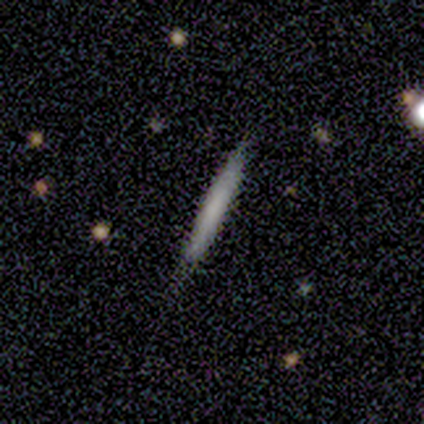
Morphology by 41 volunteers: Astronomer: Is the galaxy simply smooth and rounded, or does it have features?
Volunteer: smooth — 63%.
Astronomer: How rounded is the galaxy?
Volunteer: cigar-shaped — 96%.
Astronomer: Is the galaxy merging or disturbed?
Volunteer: none — 76%.